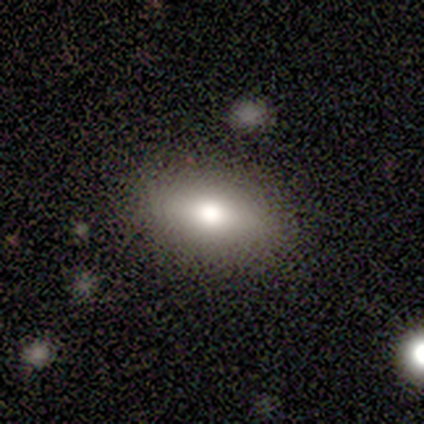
smooth_or_featured: smooth (p=0.40) [tied with: star or artifact p=0.40]
how_rounded: in between (p=0.50) [tied with: cigar-shaped p=0.50]
merging: none (p=0.67) [alt: minor disturbance p=0.33]